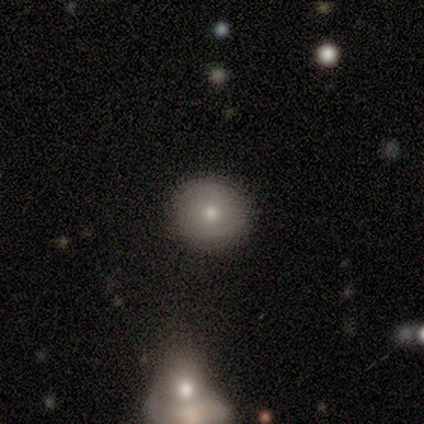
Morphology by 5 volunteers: smooth-or-featured: smooth: 80% | featured or disk: 20% | star or artifact: 0%
  how-rounded: round: 100% | in between: 0% | cigar-shaped: 0%
  merging: none: 100% | minor disturbance: 0% | major disturbance: 0% | merger: 0%